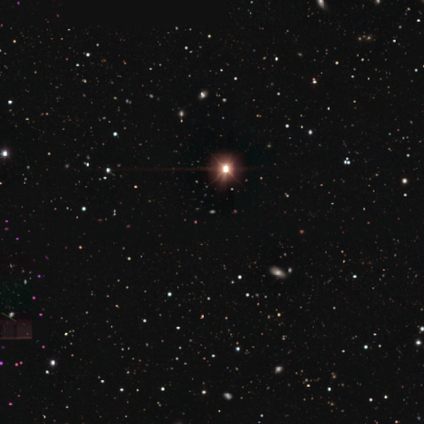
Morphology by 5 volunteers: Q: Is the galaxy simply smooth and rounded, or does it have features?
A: star or artifact — 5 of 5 (100%).